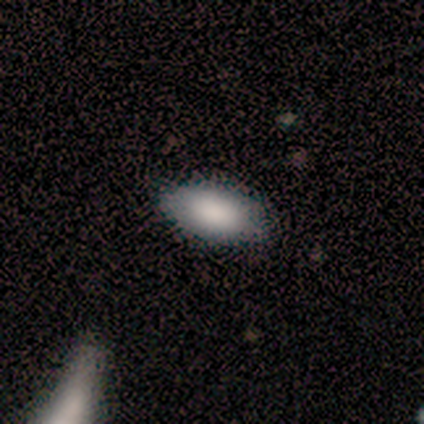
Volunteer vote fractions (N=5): Q: Smooth or featured?
A: smooth (80%); runner-up: featured or disk (20%)
Q: How rounded?
A: in between (100%)
Q: Merging?
A: none (60%); runner-up: minor disturbance (40%)